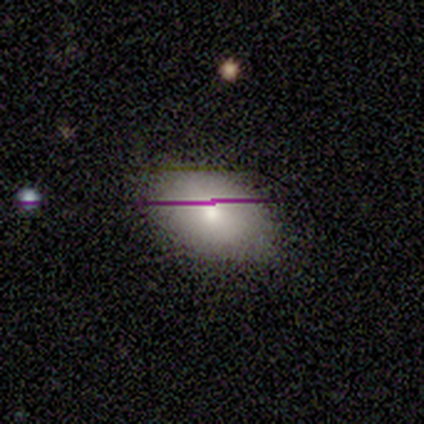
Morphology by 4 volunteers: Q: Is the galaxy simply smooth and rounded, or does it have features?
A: smooth — 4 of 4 (100%).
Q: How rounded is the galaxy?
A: in between — 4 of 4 (100%).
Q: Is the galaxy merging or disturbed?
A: none — 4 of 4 (100%).